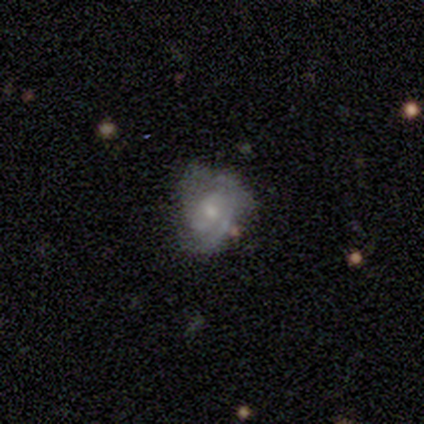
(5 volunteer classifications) A featured or disk galaxy (60%) with no bar (67%), tight (67%) spiral arms (100%) and a small central bulge (100%).

Vote fractions:
- Smooth or featured? featured or disk: 60% / smooth: 40% / star or artifact: 0%
- Edge-on disk? no: 100% / yes: 0%
- Bar? no: 67% / strong: 33% / weak: 0%
- Spiral arms? yes: 100% / no: 0%
- Spiral winding? tight: 67% / medium: 33% / loose: 0%
- Spiral arm count? can't tell: 67% / 2: 33% / 1: 0% / 3: 0% / 4: 0% / more than 4: 0%
- Bulge size? small: 100% / dominant: 0% / large: 0% / moderate: 0% / none: 0%
- Merging? none: 80% / minor disturbance: 20% / major disturbance: 0% / merger: 0%